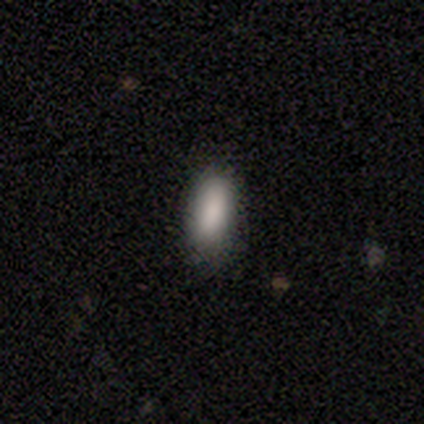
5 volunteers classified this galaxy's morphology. Smooth or featured?
  - smooth: 100% *
  - featured or disk: 0%
  - star or artifact: 0%
How rounded?
  - in between: 80% *
  - cigar-shaped: 20%
  - round: 0%
Merging?
  - minor disturbance: 60% *
  - none: 40%
  - major disturbance: 0%
  - merger: 0%